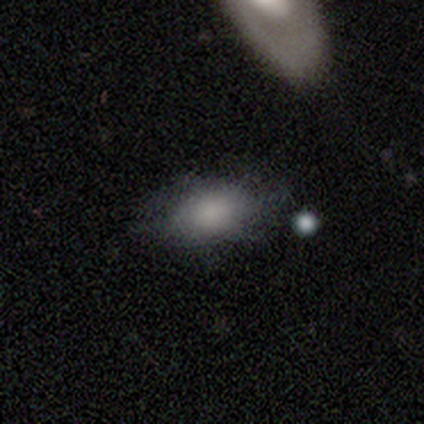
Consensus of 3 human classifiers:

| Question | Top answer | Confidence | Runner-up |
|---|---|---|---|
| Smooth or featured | smooth | 67% | featured or disk (33%) |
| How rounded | in between | 100% | — |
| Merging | none | 67% | minor disturbance (33%) |